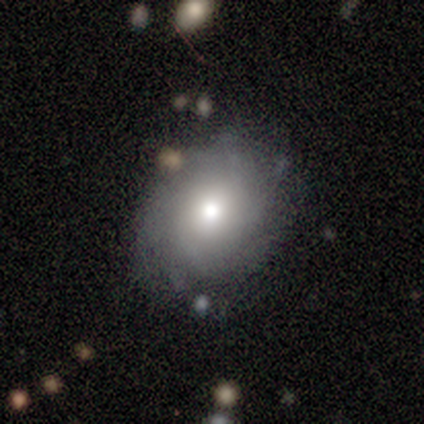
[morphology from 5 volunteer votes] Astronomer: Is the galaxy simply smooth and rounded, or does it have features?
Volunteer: smooth — 60% (runner-up: featured or disk, 40%).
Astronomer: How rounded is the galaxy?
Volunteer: in between — 67%.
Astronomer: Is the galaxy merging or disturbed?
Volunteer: none — 80%.